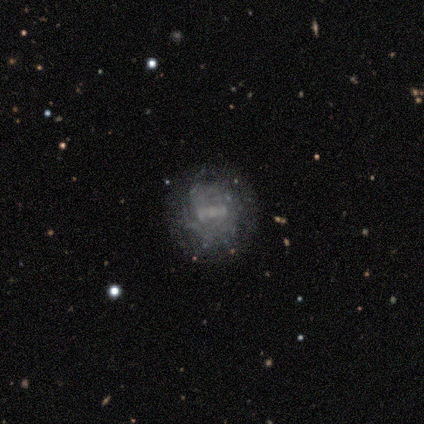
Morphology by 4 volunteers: This is clearly a featured or disk galaxy (100%). It is clearly not viewed edge-on (100%). Bar: possibly weak (50%). Spiral arm pattern: possibly yes (50%, tied with no). Spiral arm count: possibly 2 (50%, tied with can't tell). Spiral winding: possibly tight (50%, tied with loose). Central bulge: possibly small (50%, tied with none). Merging: possibly none (50%, tied with major disturbance).